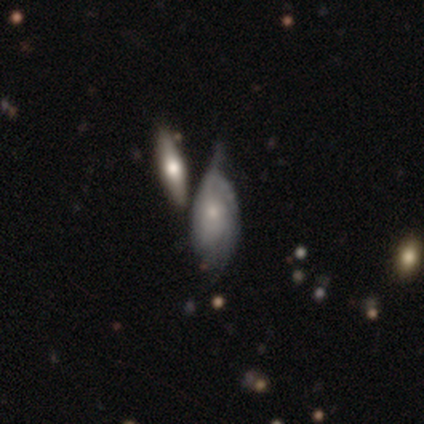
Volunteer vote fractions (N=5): Q: Smooth or featured?
A: smooth (60%); runner-up: featured or disk (20%)
Q: How rounded?
A: in between (100%)
Q: Merging?
A: none (25%); tied with: minor disturbance (25%); major disturbance (25%); merger (25%)